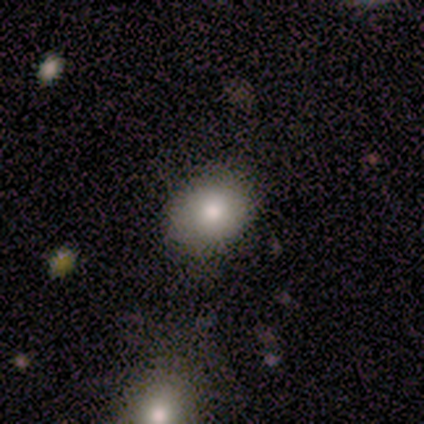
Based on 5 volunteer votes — Smooth or featured?
  - smooth: 80% *
  - featured or disk: 20%
  - star or artifact: 0%
How rounded?
  - in between: 75% *
  - round: 25%
  - cigar-shaped: 0%
Merging?
  - none: 100% *
  - minor disturbance: 0%
  - major disturbance: 0%
  - merger: 0%